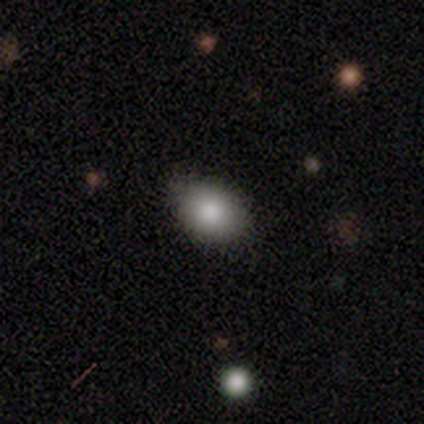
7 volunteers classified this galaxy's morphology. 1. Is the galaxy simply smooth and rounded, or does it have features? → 100% smooth, 0% featured or disk, 0% star or artifact.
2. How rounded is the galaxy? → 100% in between, 0% round, 0% cigar-shaped.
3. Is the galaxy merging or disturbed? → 71% none, 29% minor disturbance, 0% major disturbance, 0% merger.